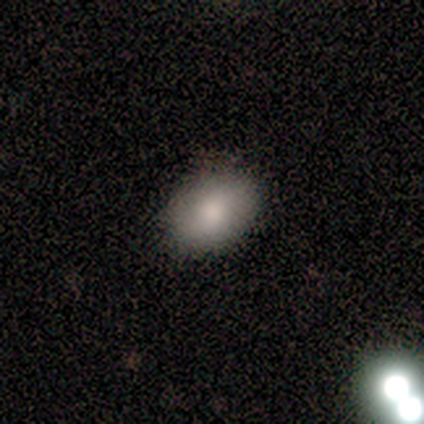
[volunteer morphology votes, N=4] Smooth or featured? 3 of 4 (75%) said smooth. How rounded? 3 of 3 (100%) said in between. Merging? 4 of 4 (100%) said none.